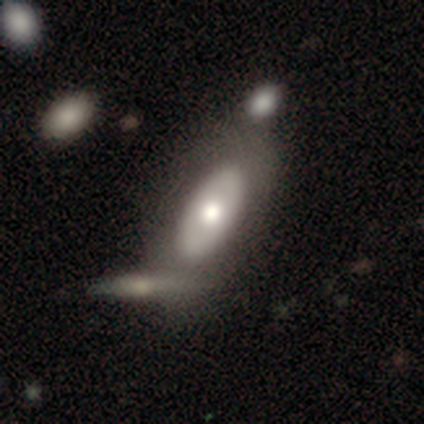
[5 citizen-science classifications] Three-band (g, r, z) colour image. It shows a smooth galaxy with no disk features (40%, tied with featured or disk) that is in between round and cigar-shaped (100%). Merging: none (75%).